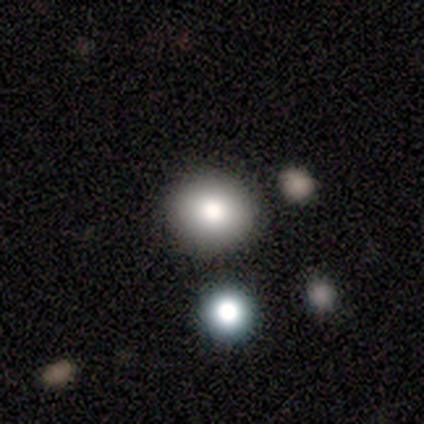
Smooth or featured? featured or disk (67%)
Edge-on disk? yes (50%, tied with no)
Edge-on bulge? none (100%)
Merging? none (100%)